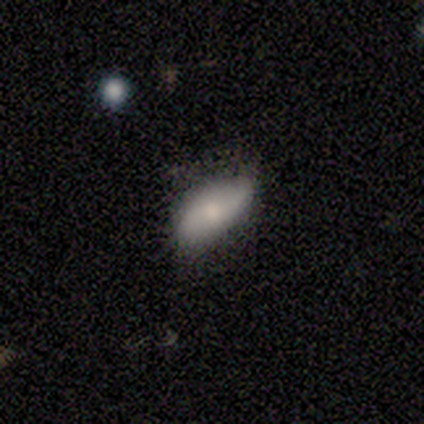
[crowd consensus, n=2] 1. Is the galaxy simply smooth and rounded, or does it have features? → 100% smooth, 0% featured or disk, 0% star or artifact.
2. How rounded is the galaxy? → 100% in between, 0% round, 0% cigar-shaped.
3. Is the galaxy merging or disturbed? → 50% none (tied), 50% minor disturbance (tied), 0% major disturbance, 0% merger.